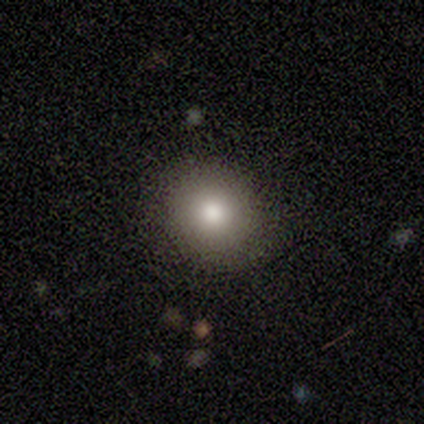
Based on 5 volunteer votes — Volunteers were most divided on "how rounded": round: 75%, in between: 25%, cigar-shaped: 0%. More confident: merging — none (100%); smooth or featured — smooth (80%).